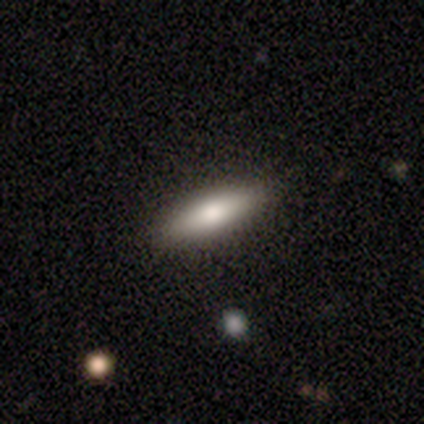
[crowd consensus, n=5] smooth_or_featured: smooth (p=0.80) [alt: featured or disk p=0.20]
how_rounded: cigar-shaped (p=1.00)
merging: none (p=0.80) [alt: minor disturbance p=0.20]